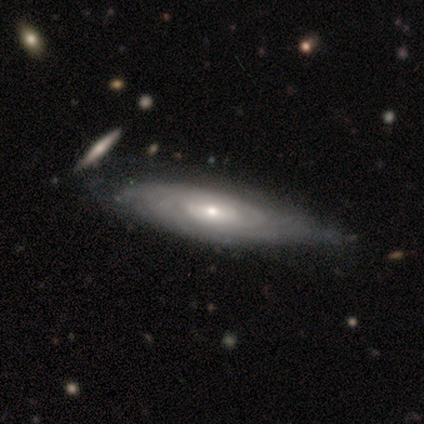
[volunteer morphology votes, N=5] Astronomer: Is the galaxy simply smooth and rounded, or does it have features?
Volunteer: featured or disk — 100%.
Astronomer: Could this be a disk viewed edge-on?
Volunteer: no — 100%.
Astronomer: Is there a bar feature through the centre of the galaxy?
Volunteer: no — 80%.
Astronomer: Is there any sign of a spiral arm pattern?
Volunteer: yes — 80%.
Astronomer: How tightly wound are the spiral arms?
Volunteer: tight — 100%.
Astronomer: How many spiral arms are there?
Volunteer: can't tell — 75%.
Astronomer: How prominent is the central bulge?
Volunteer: small — 60% (runner-up: moderate, 40%).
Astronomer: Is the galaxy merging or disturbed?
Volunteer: none — 80%.